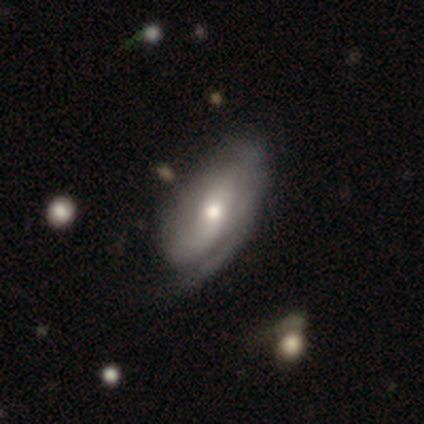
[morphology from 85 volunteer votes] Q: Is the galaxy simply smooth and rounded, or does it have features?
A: featured or disk — 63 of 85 (74%).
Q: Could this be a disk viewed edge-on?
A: no — 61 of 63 (97%).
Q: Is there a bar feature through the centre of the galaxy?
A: no — 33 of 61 (54%).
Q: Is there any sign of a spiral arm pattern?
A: yes — 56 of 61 (92%).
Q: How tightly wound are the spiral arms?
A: tight — 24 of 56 (43%).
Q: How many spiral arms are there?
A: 2 — 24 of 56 (43%).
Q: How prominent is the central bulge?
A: moderate — 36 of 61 (59%).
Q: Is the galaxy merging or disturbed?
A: none — 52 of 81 (64%).